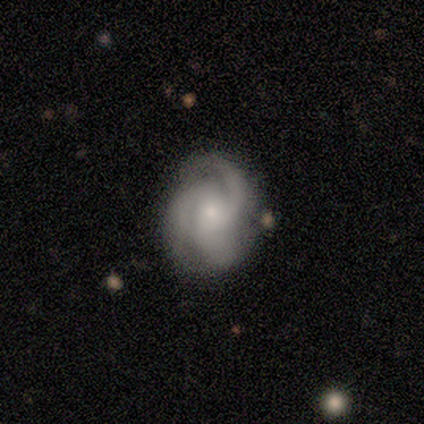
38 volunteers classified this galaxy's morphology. Smooth or featured: featured or disk — 97% (smooth — 3%)
Edge-on disk: no — 95% (yes — 5%)
Bar: no — 83% (weak — 11%)
Spiral arms: yes — 97% (no — 3%)
Spiral winding: medium — 44% (tight — 38%)
Spiral arm count: 3 — 76% (can't tell — 12%)
Bulge size: small — 54% (moderate — 29%)
Merging: none — 84% (minor disturbance — 8%)